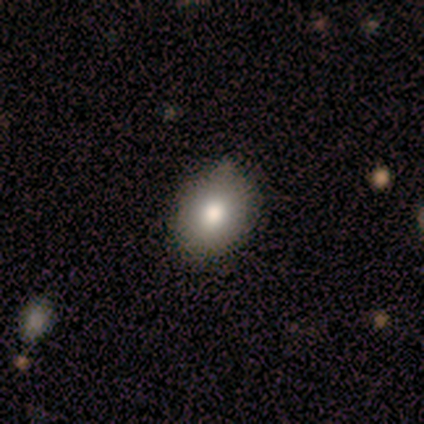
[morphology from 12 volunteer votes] type=smooth (75%); roundness=in between (78%); merging=none (70%).